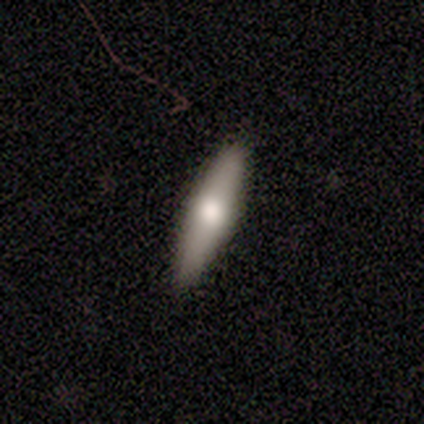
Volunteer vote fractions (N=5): Smooth or featured?
  - smooth: 80% *
  - featured or disk: 20%
  - star or artifact: 0%
How rounded?
  - cigar-shaped: 100% *
  - round: 0%
  - in between: 0%
Merging?
  - none: 80% *
  - minor disturbance: 20%
  - major disturbance: 0%
  - merger: 0%